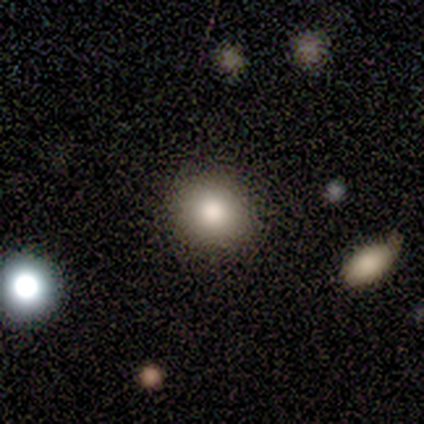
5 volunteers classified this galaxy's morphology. smooth-or-featured: smooth: 100% | featured or disk: 0% | star or artifact: 0%
  how-rounded: round: 80% | in between: 20% | cigar-shaped: 0%
  merging: none: 100% | minor disturbance: 0% | major disturbance: 0% | merger: 0%